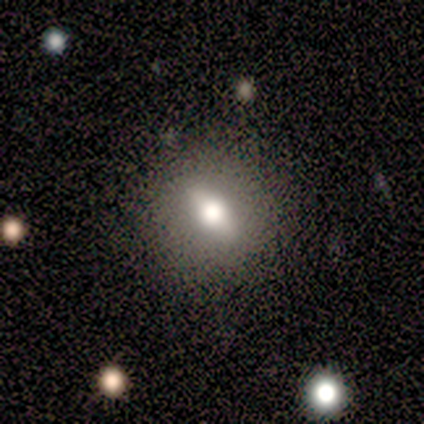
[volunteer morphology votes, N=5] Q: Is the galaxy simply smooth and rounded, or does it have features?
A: featured or disk — 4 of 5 (80%).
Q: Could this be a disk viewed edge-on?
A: yes — 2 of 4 (50%, tied with no).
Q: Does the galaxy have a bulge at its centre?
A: boxy — 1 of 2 (50%, tied with rounded).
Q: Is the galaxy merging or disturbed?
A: none — 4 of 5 (80%).